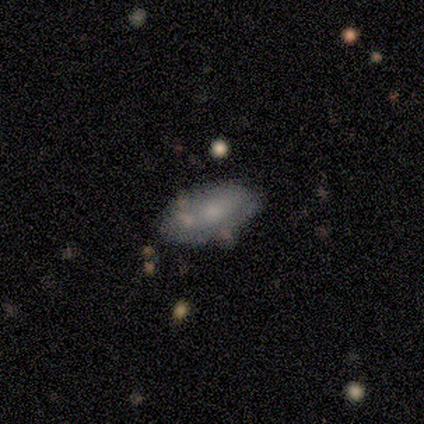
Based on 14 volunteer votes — Q: Smooth or featured?
A: smooth (57%); runner-up: featured or disk (43%)
Q: How rounded?
A: in between (88%); runner-up: cigar-shaped (12%)
Q: Merging?
A: none (57%); runner-up: minor disturbance (36%)